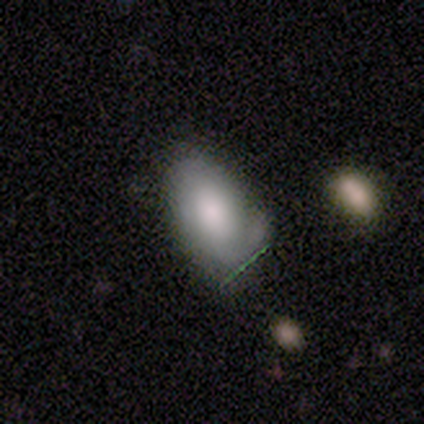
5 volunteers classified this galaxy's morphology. This is marginally a smooth galaxy (40%, tied with featured or disk). How rounded: clearly in between (100%). Merging: likely none (75%).